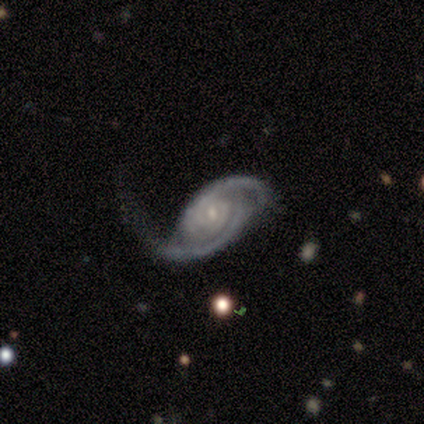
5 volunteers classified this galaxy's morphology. A featured or disk galaxy (100%) with a weak bar (80%), 2 (100%) tight (40%, tied with medium) spiral arms (100%) and a small central bulge (100%).

Vote fractions:
- Smooth or featured? featured or disk: 100% / smooth: 0% / star or artifact: 0%
- Edge-on disk? no: 100% / yes: 0%
- Bar? weak: 80% / no: 20% / strong: 0%
- Spiral arms? yes: 100% / no: 0%
- Spiral winding? tight: 40% (tied) / medium: 40% (tied) / loose: 20%
- Spiral arm count? 2: 100% / 1: 0% / 3: 0% / 4: 0% / more than 4: 0% / can't tell: 0%
- Bulge size? small: 100% / dominant: 0% / large: 0% / moderate: 0% / none: 0%
- Merging? major disturbance: 80% / none: 20% / minor disturbance: 0% / merger: 0%